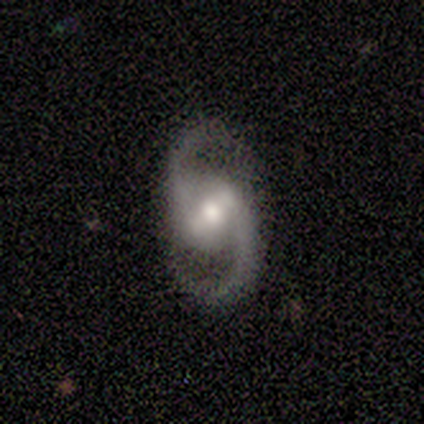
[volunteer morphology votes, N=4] smooth_or_featured: featured or disk (p=1.00)
disk_edge_on: no (p=1.00)
bar: weak (p=1.00)
has_spiral_arms: yes (p=1.00)
spiral_winding: medium (p=0.50) [alt: tight p=0.25]
spiral_arm_count: 2 (p=1.00)
bulge_size: moderate (p=0.75) [alt: small p=0.25]
merging: none (p=0.75) [alt: merger p=0.25]